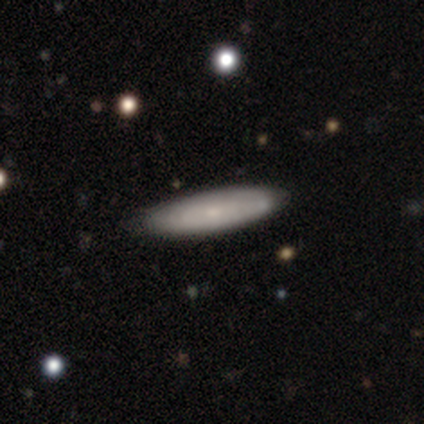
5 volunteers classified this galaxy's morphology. This appears to be a featured or disk galaxy (60%) with no bar (100%), tight (100%) spiral arms (50%, tied with no) and a small central bulge (100%). Merging: none (80%).